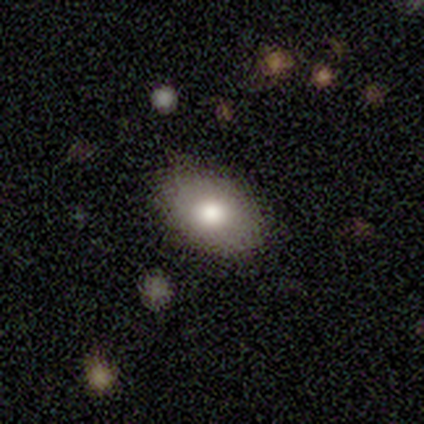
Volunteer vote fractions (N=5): A smooth galaxy with no disk features (100%) that is in between round and cigar-shaped (100%).

Vote fractions:
- Smooth or featured? smooth: 100% / featured or disk: 0% / star or artifact: 0%
- How rounded? in between: 100% / round: 0% / cigar-shaped: 0%
- Merging? none: 80% / major disturbance: 20% / minor disturbance: 0% / merger: 0%